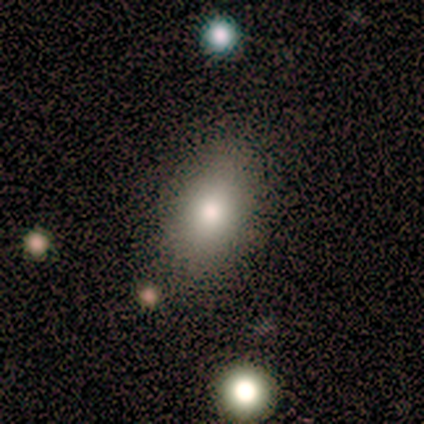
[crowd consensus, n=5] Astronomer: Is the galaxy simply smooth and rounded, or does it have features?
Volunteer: smooth — 80%.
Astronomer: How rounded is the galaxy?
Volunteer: in between — 100%.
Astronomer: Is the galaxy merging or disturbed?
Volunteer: none — 80%.